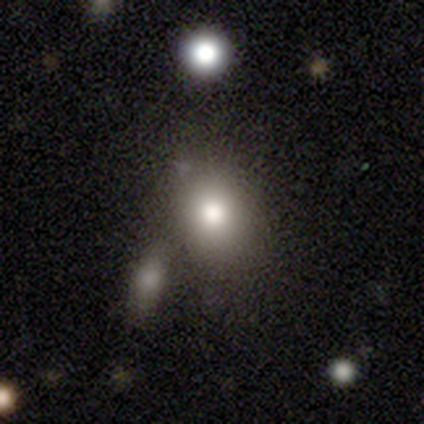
Smooth or featured: smooth — 77% (star or artifact — 14%)
How rounded: in between — 56% (round — 44%)
Merging: merger — 50% (none — 3%)